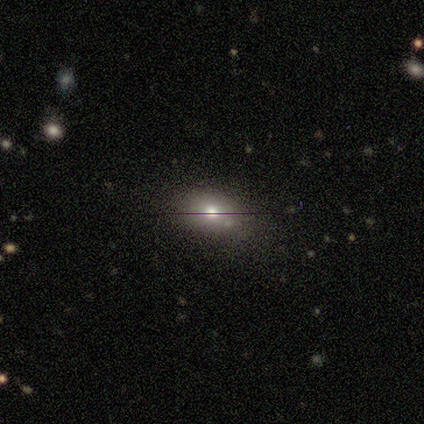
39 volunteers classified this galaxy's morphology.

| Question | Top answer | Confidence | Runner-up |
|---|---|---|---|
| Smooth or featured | smooth | 69% | featured or disk (15%) |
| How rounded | in between | 74% | round (26%) |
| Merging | none | 73% | minor disturbance (21%) |